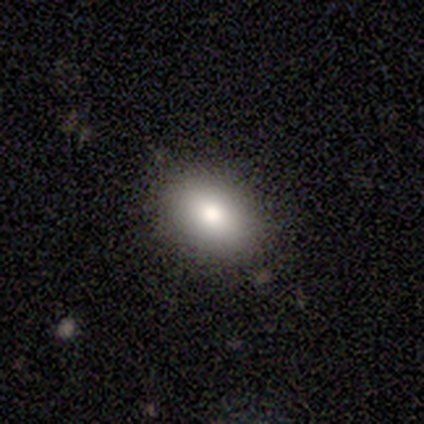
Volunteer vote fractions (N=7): This appears to be a smooth galaxy with no disk features (71%) that is in between round and cigar-shaped (100%). Merging: none (100%).